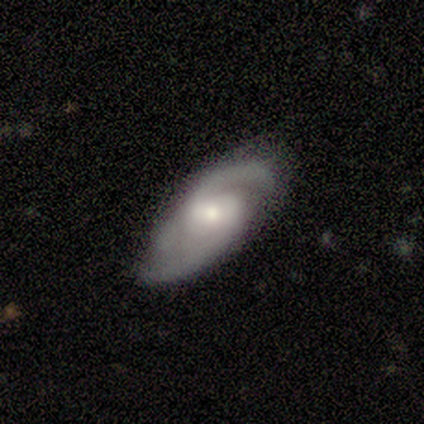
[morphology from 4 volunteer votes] A featured or disk galaxy (75%) with no bar (67%), 2 (67%) medium (100%) spiral arms (100%) and a moderate central bulge (67%). Merging: none (50%).